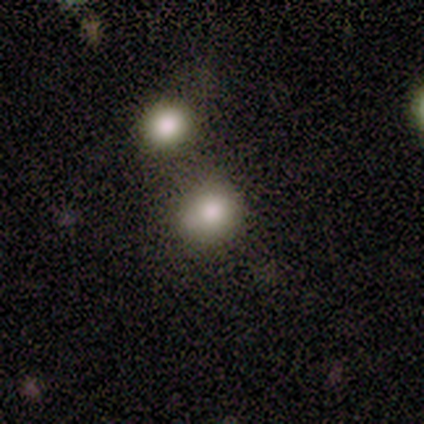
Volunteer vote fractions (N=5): Smooth or featured? smooth (80%)
How rounded? round (100%)
Merging? none (80%)